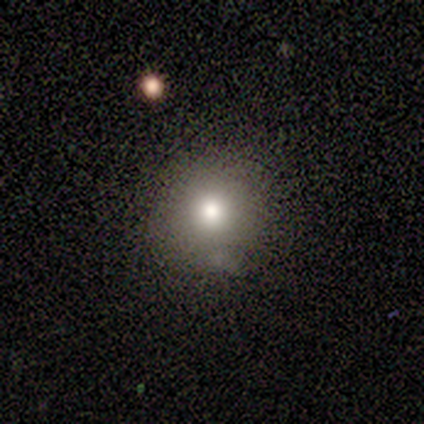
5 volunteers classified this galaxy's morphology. This is clearly a smooth galaxy (100%). How rounded: clearly round (80%). Merging: clearly none (80%).